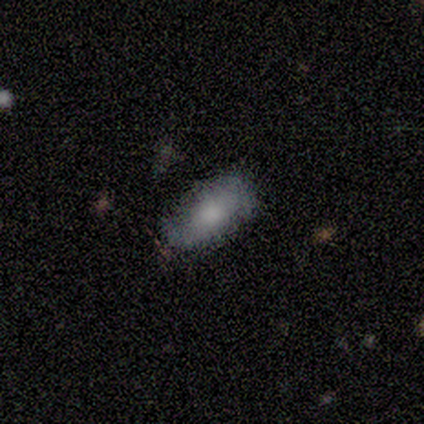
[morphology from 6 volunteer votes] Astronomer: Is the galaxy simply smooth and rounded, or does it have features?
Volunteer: smooth — 83%.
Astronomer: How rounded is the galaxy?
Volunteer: in between — 100%.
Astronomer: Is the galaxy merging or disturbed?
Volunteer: none — 67%.